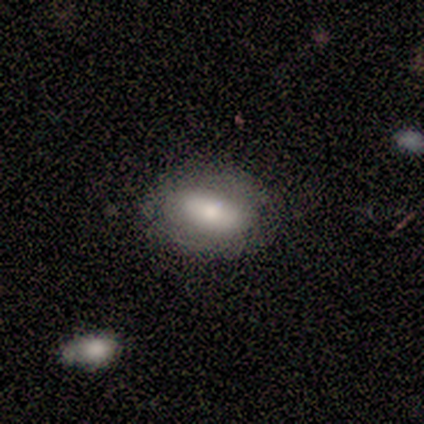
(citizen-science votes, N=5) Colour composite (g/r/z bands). It shows a smooth galaxy with no disk features (80%) that is in between round and cigar-shaped (100%). Merging: none (80%).